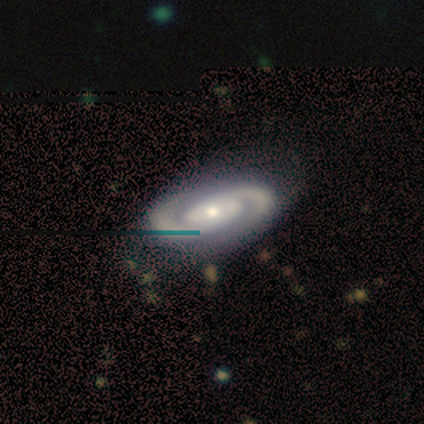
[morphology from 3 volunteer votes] smooth-or-featured: featured or disk: 100% | smooth: 0% | star or artifact: 0%
  disk-edge-on: no: 100% | yes: 0%
    bar: strong: 33% (tied) | weak: 33% (tied) | no: 33% (tied)
    has-spiral-arms: yes: 100% | no: 0%
      spiral-winding: tight: 100% | medium: 0% | loose: 0%
      spiral-arm-count: 2: 100% | 1: 0% | 3: 0% | 4: 0% | more than 4: 0% | can't tell: 0%
    bulge-size: small: 67% | moderate: 33% | dominant: 0% | large: 0% | none: 0%
  merging: none: 100% | minor disturbance: 0% | major disturbance: 0% | merger: 0%